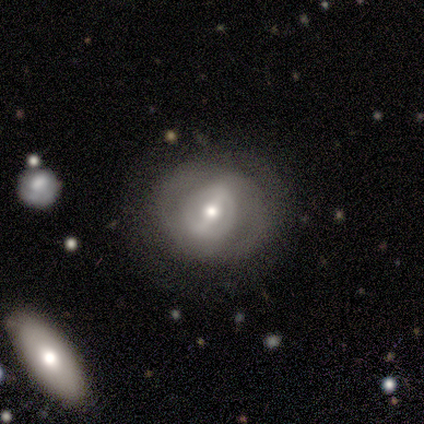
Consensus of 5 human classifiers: Volunteers were most divided on "bar": weak: 75%, no: 25%, strong: 0%. More confident: edge-on disk — no (100%); merging — none (100%); smooth or featured — featured or disk (80%); spiral arms — no (75%); bulge size — moderate (75%).